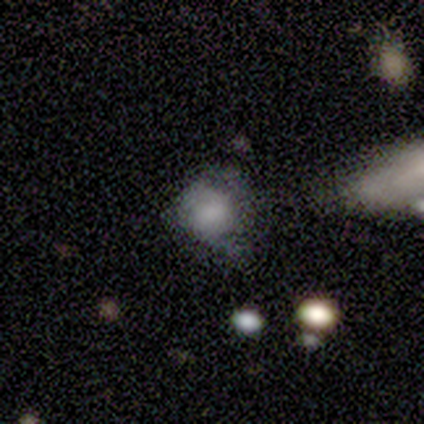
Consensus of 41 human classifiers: Overall: smooth (63%; featured or disk 27%). How rounded: round (73%). Merging: none (38%; minor disturbance 35%).